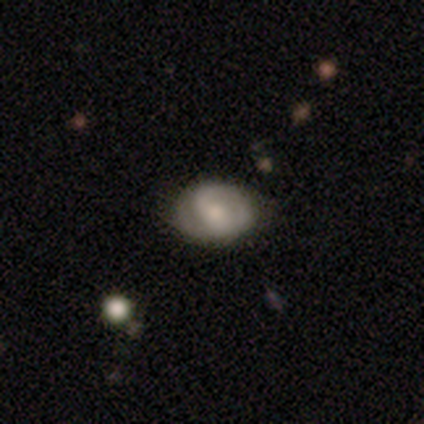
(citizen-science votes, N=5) A featured or disk galaxy (60%) with no bar (67%), tight (50%, tied with medium) spiral arms (67%) and a moderate central bulge (67%).

Vote fractions:
- Smooth or featured? featured or disk: 60% / smooth: 40% / star or artifact: 0%
- Edge-on disk? no: 100% / yes: 0%
- Bar? no: 67% / weak: 33% / strong: 0%
- Spiral arms? yes: 67% / no: 33%
- Spiral winding? tight: 50% (tied) / medium: 50% (tied) / loose: 0%
- Spiral arm count? can't tell: 100% / 1: 0% / 2: 0% / 3: 0% / 4: 0% / more than 4: 0%
- Bulge size? moderate: 67% / none: 33% / dominant: 0% / large: 0% / small: 0%
- Merging? none: 80% / minor disturbance: 20% / major disturbance: 0% / merger: 0%